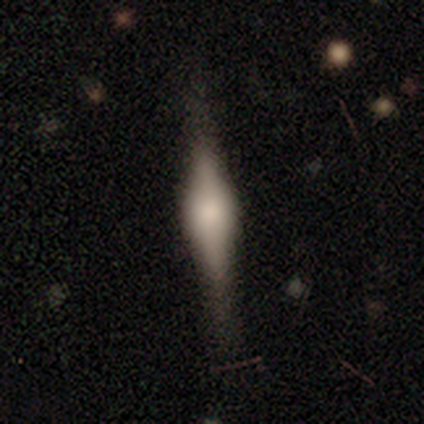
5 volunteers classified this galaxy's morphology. Overall: smooth (60%; featured or disk 40%). How rounded: cigar-shaped (100%). Merging: none (60%; minor disturbance 20%).